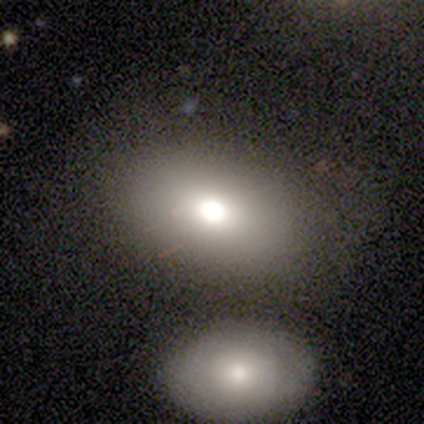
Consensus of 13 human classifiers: Smooth or featured? 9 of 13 (69%) said smooth. How rounded? 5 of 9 (56%) said in between. Merging? 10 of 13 (77%) said none.